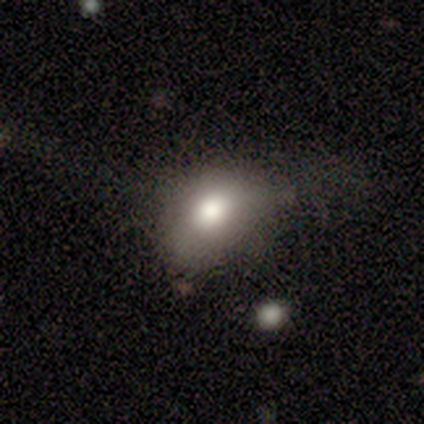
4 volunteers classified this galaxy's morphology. featured or disk 75%, smooth 25%, star or artifact 0%. Down the decision tree: edge-on disk — no (67%); bar — no (100%); spiral arms — no (100%); bulge size — moderate (100%); merging — none (25%, tied with minor disturbance, major disturbance and merger).